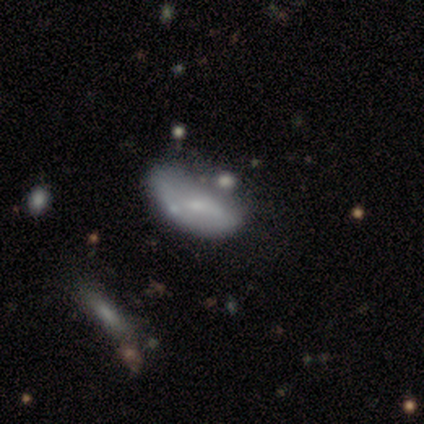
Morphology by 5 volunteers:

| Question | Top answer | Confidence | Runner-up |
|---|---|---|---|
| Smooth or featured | featured or disk | 80% | smooth (20%) |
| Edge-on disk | no | 100% | — |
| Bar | no | 75% | strong (25%) |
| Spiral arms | no | 100% | — |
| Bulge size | small | 75% | none (25%) |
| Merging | minor disturbance | 40% | tied: major disturbance (40%) |